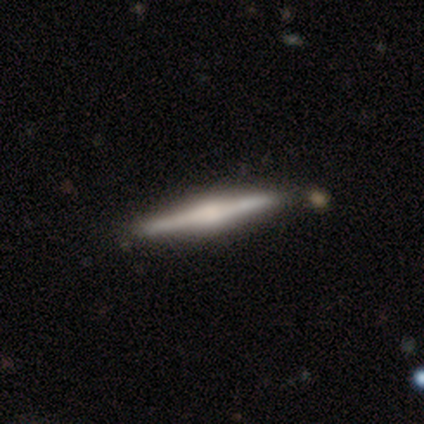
This is likely a featured or disk galaxy (60%). It is clearly viewed edge-on (100%). Edge-on bulge: likely rounded (67%). Merging: clearly none (100%).